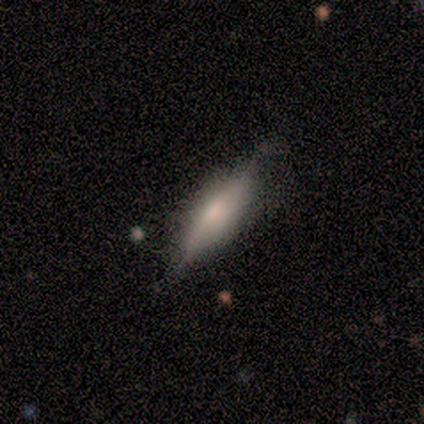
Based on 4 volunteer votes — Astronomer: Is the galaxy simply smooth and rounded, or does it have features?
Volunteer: featured or disk — 75%.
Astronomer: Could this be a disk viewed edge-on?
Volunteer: no — 67%.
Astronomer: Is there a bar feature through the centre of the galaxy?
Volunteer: no — 100%.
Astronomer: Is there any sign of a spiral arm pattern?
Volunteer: no — 100%.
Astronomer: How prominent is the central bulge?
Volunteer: small — 100%.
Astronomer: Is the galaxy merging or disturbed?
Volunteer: minor disturbance — 75%.